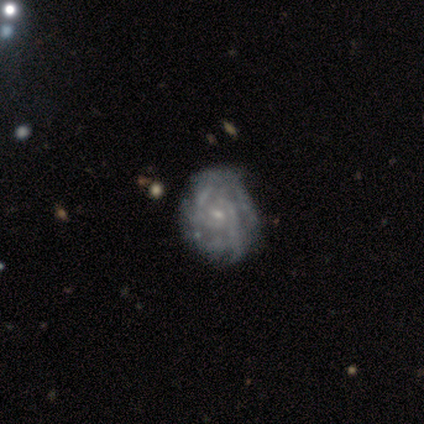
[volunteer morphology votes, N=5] Smooth or featured?
  - featured or disk: 100% *
  - smooth: 0%
  - star or artifact: 0%
Edge-on disk?
  - no: 100% *
  - yes: 0%
Bar?
  - no: 80% *
  - weak: 20%
  - strong: 0%
Spiral arms?
  - yes: 80% *
  - no: 20%
Spiral winding?
  - tight: 50% *
  - medium: 25%
  - loose: 25%
Spiral arm count?
  - can't tell: 100% *
  - 1: 0%
  - 2: 0%
  - 3: 0%
  - 4: 0%
  - more than 4: 0%
Bulge size?
  - small: 80% *
  - moderate: 20%
  - dominant: 0%
  - large: 0%
  - none: 0%
Merging?
  - none: 100% *
  - minor disturbance: 0%
  - major disturbance: 0%
  - merger: 0%